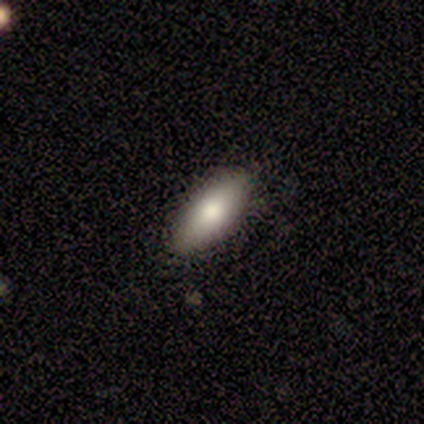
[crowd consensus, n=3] smooth-or-featured: smooth: 100% | featured or disk: 0% | star or artifact: 0%
  how-rounded: in between: 100% | round: 0% | cigar-shaped: 0%
  merging: none: 100% | minor disturbance: 0% | major disturbance: 0% | merger: 0%